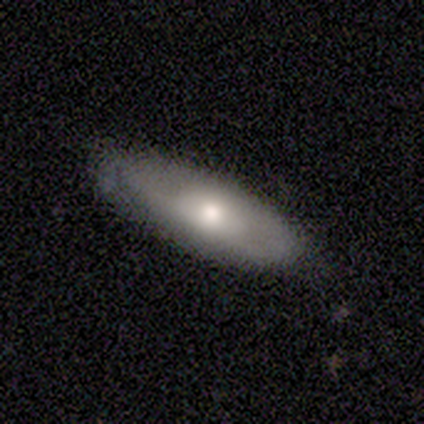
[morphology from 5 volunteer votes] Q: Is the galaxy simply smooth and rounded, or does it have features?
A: smooth — 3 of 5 (60%).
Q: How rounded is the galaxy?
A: in between — 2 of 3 (67%).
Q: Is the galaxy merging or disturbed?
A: none — 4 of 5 (80%).